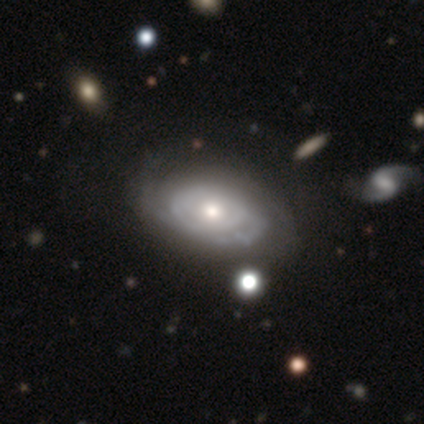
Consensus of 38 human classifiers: Q: Smooth or featured?
A: featured or disk (87%); runner-up: smooth (11%)
Q: Edge-on disk?
A: no (94%); runner-up: yes (6%)
Q: Bar?
A: no (74%); runner-up: weak (23%)
Q: Spiral arms?
A: yes (84%); runner-up: no (16%)
Q: Spiral winding?
A: tight (62%); runner-up: medium (27%)
Q: Spiral arm count?
A: can't tell (50%); runner-up: 2 (23%)
Q: Bulge size?
A: moderate (74%); runner-up: small (19%)
Q: Merging?
A: none (49%); runner-up: minor disturbance (16%)